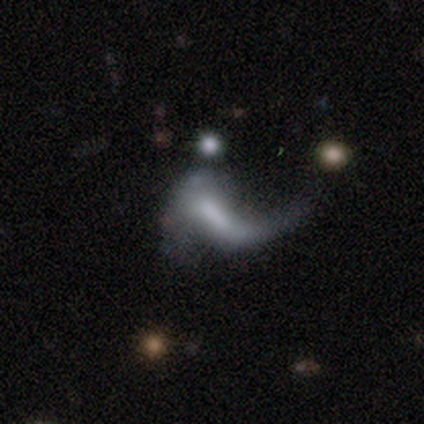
A featured or disk galaxy (60%) with no bar (53%), 1 (77%) loose (87%) spiral arms (67%) and no central bulge (62%).

Vote fractions:
- Smooth or featured? featured or disk: 60% / smooth: 32% / star or artifact: 9%
- Edge-on disk? no: 92% / yes: 8%
- Bar? no: 53% / weak: 31% / strong: 16%
- Spiral arms? yes: 67% / no: 33%
- Spiral winding? loose: 87% / medium: 13% / tight: 0%
- Spiral arm count? 1: 77% / 2: 23% / 3: 0% / 4: 0% / more than 4: 0% / can't tell: 0%
- Bulge size? none: 62% / small: 20% / moderate: 11% / dominant: 4% / large: 2%
- Merging? major disturbance: 48% / none: 28% / merger: 16% / minor disturbance: 8%